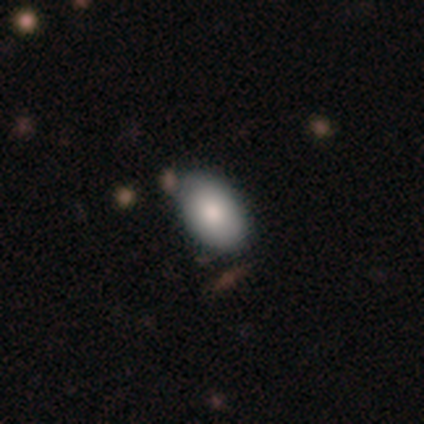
Smooth or featured: smooth — 80% (featured or disk — 20%)
How rounded: in between — 100%
Merging: none — 100%